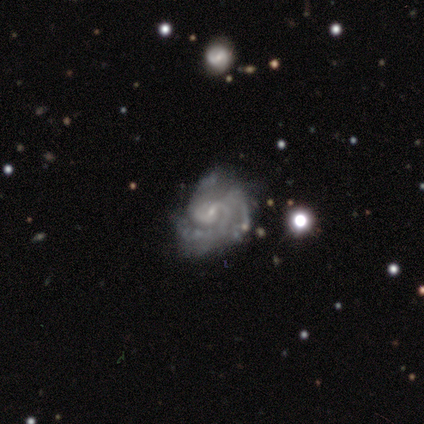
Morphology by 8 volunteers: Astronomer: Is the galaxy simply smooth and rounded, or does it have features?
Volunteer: featured or disk — 100%.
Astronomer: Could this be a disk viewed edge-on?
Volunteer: no — 100%.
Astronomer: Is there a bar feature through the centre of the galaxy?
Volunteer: no — 62%.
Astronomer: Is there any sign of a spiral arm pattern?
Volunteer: yes — 88%.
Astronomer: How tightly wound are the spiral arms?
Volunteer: tight — 57%.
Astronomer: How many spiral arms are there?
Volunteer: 2 — 43% (runner-up: 3, 29%).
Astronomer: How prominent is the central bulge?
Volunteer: small — 88%.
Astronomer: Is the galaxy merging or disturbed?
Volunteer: none — 50% (runner-up: minor disturbance, 38%).